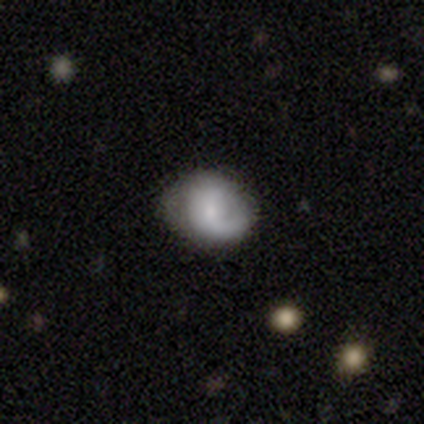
This is likely a smooth galaxy (60%). How rounded: likely round (67%). Merging: likely none (75%).